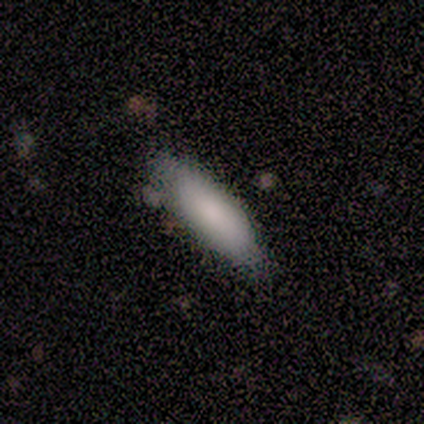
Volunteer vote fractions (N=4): Volunteers were most divided on "merging" (2-way tie): none: 50%, minor disturbance: 50%, major disturbance: 0%, merger: 0%. More confident: smooth or featured — smooth (100%); how rounded — cigar-shaped (75%).